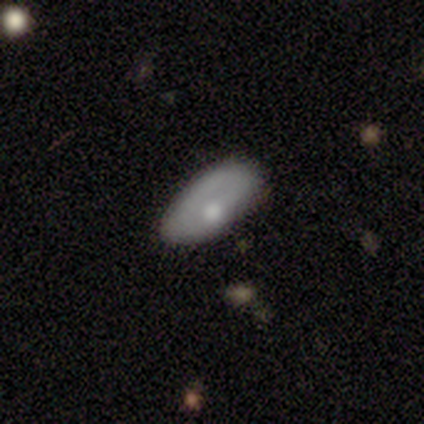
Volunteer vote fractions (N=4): This is likely a featured or disk galaxy (75%). It is clearly not viewed edge-on (100%). Bar: clearly no (100%). Spiral arm pattern: clearly no (100%). Central bulge: marginally moderate (33%, tied with small and none). Merging: possibly none (50%).